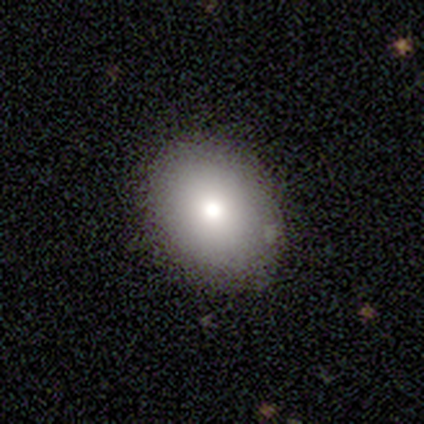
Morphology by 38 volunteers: Smooth or featured: smooth — 84% (featured or disk — 11%)
How rounded: in between — 56% (round — 44%)
Merging: none — 92% (minor disturbance — 8%)